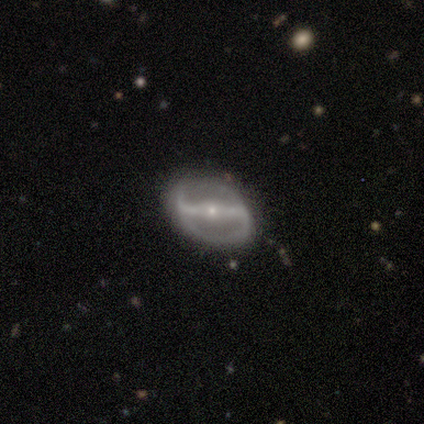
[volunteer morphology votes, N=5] Overall: featured or disk (100%). Edge-on disk: no (100%). Bar: strong (60%; weak 20%). Spiral arms: yes (80%). Spiral arm count: 2 (100%). Spiral winding: loose (75%). Bulge size: small (80%). Merging: none (80%).